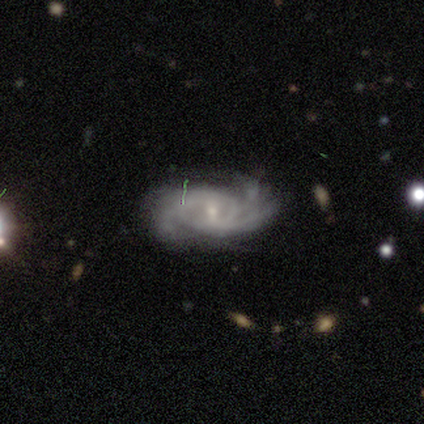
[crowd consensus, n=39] smooth-or-featured: featured or disk: 92% | smooth: 8% | star or artifact: 0%
  disk-edge-on: no: 94% | yes: 6%
    bar: weak: 53% | no: 29% | strong: 18%
    has-spiral-arms: yes: 100% | no: 0%
      spiral-winding: tight: 56% | medium: 35% | loose: 9%
      spiral-arm-count: can't tell: 41% | 3: 29% | 4: 15% | more than 4: 9% | 1: 3% | 2: 3%
    bulge-size: small: 79% | moderate: 18% | large: 3% | dominant: 0% | none: 0%
  merging: none: 64% | minor disturbance: 21% | major disturbance: 13% | merger: 3%